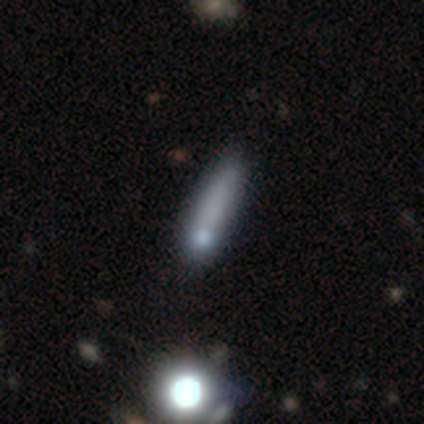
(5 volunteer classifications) Smooth or featured: smooth — 60% (featured or disk — 40%)
How rounded: cigar-shaped — 67% (in between — 33%)
Merging: none — 80% (major disturbance — 20%)